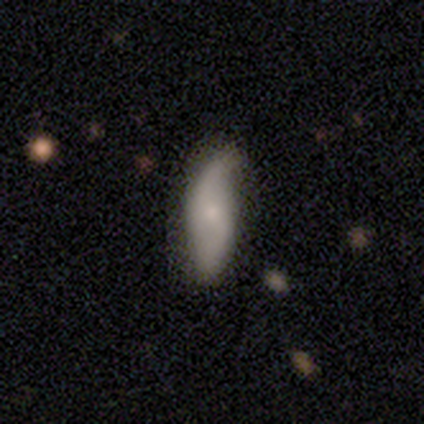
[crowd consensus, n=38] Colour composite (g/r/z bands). It shows a smooth galaxy with no disk features (58%) that is in between round and cigar-shaped (77%). Merging: none (64%).